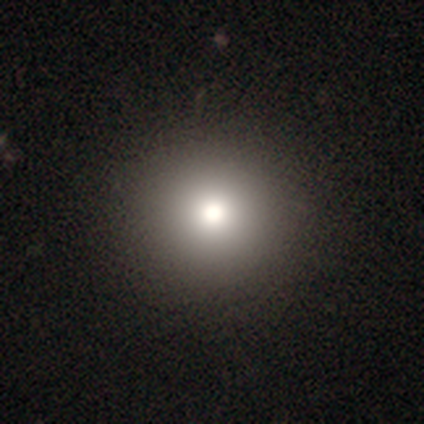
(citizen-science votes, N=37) smooth-or-featured: smooth: 84% | star or artifact: 11% | featured or disk: 5%
  how-rounded: round: 94% | in between: 6% | cigar-shaped: 0%
  merging: none: 55% | minor disturbance: 3% | major disturbance: 0% | merger: 0%